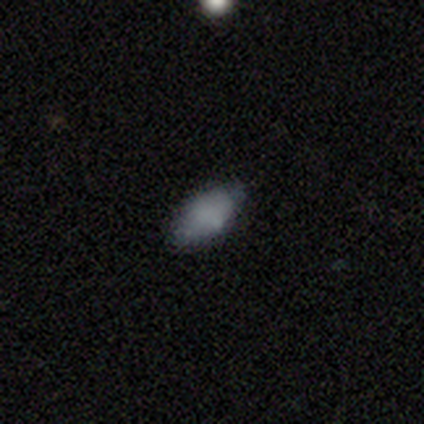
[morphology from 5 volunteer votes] Smooth or featured: smooth — 80% (featured or disk — 20%)
How rounded: in between — 100%
Merging: none — 100%